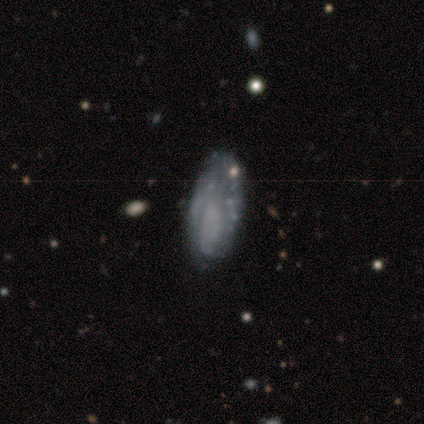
Smooth or featured: featured or disk — 79% (smooth — 16%)
Edge-on disk: no — 92% (yes — 8%)
Bar: no — 90% (weak — 10%)
Spiral arms: no — 52% (yes — 48%)
Bulge size: none — 82% (small — 11%)
Merging: none — 47% (minor disturbance — 36%)